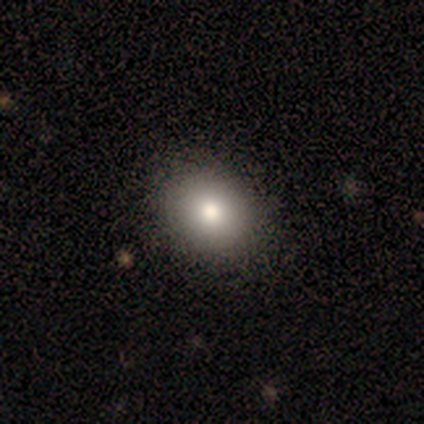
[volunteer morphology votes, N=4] This appears to be a smooth galaxy with no disk features (75%) that is round (100%). Merging: none (100%).